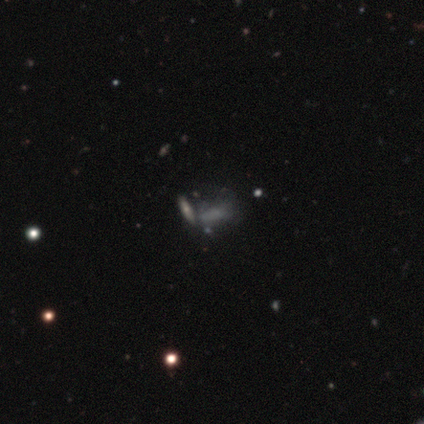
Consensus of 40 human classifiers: smooth-or-featured: smooth: 62% | featured or disk: 25% | star or artifact: 12%
  how-rounded: in between: 80% | cigar-shaped: 20% | round: 0%
  merging: merger: 46% | none: 29% | major disturbance: 17% | minor disturbance: 9%